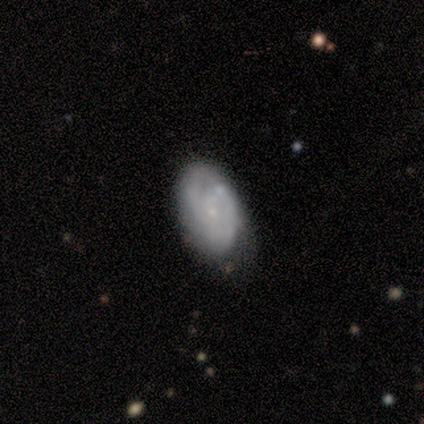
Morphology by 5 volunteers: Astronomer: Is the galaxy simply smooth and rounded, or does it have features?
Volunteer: featured or disk — 60% (runner-up: smooth, 40%).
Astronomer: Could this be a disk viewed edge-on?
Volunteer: no — 100%.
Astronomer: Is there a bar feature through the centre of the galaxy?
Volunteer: no — 67%.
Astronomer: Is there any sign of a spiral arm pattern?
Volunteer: yes — 100%.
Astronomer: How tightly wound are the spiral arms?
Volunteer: tight — 67%.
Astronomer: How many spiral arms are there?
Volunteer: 2 — 33%, tied with 4 and can't tell at 33%.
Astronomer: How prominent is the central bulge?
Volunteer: small — 67%.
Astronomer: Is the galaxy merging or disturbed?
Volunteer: none — 40%, tied with minor disturbance at 40%.